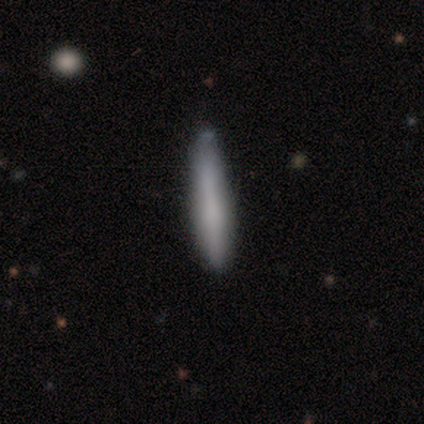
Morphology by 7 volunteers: A smooth galaxy with no disk features (86%) that is cigar-shaped (100%).

Vote fractions:
- Smooth or featured? smooth: 86% / featured or disk: 14% / star or artifact: 0%
- How rounded? cigar-shaped: 100% / round: 0% / in between: 0%
- Merging? none: 71% / minor disturbance: 14% / merger: 14% / major disturbance: 0%